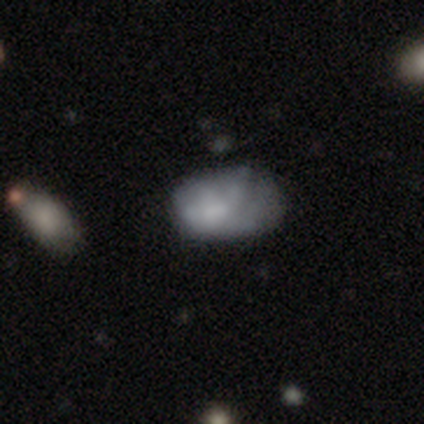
Overall: smooth (53%; featured or disk 39%). How rounded: in between (85%). Merging: none (40%; minor disturbance 29%).